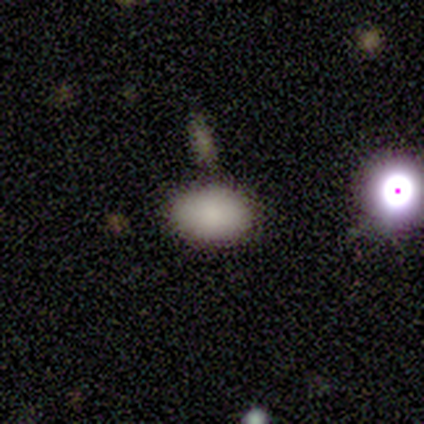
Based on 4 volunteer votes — A smooth galaxy with no disk features (100%) that is in between round and cigar-shaped (100%).

Vote fractions:
- Smooth or featured? smooth: 100% / featured or disk: 0% / star or artifact: 0%
- How rounded? in between: 100% / round: 0% / cigar-shaped: 0%
- Merging? none: 75% / minor disturbance: 25% / major disturbance: 0% / merger: 0%